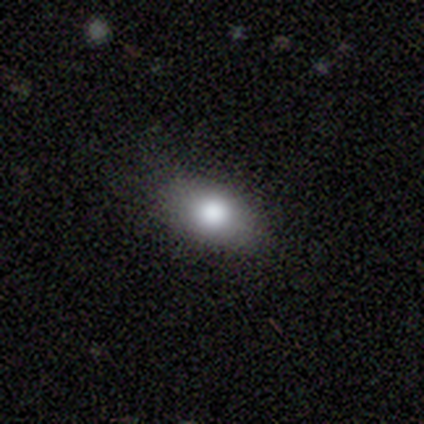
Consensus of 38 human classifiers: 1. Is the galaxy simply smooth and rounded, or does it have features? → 63% smooth, 29% featured or disk, 8% star or artifact.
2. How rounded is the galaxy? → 92% in between, 8% round, 0% cigar-shaped.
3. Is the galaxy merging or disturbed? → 86% none, 11% minor disturbance, 3% major disturbance, 0% merger.